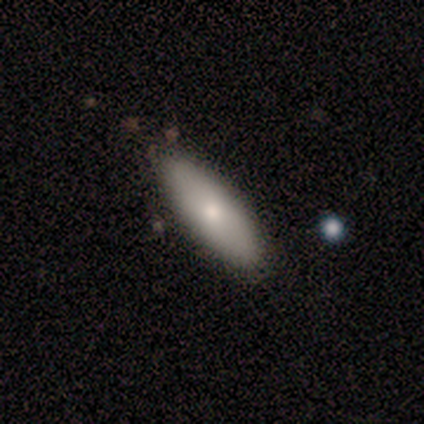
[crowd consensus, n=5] This is clearly a smooth galaxy (80%). How rounded: possibly in between (50%, tied with cigar-shaped). Merging: clearly none (100%).